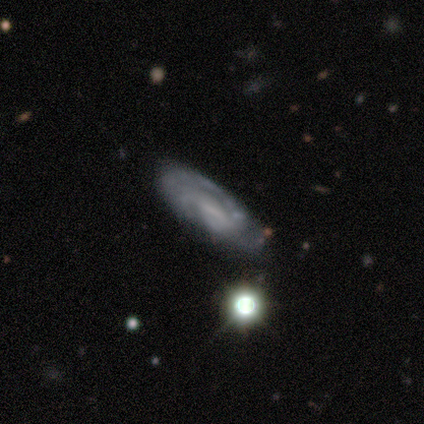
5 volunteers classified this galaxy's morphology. Smooth or featured?
  - featured or disk: 80% *
  - smooth: 20%
  - star or artifact: 0%
Edge-on disk?
  - no: 75% *
  - yes: 25%
Bar?
  - weak: 67% *
  - no: 33%
  - strong: 0%
Spiral arms?
  - yes: 100% *
  - no: 0%
Spiral winding?
  - medium: 67% *
  - tight: 33%
  - loose: 0%
Spiral arm count?
  - 2: 67% *
  - can't tell: 33%
  - 1: 0%
  - 3: 0%
  - 4: 0%
  - more than 4: 0%
Bulge size?
  - moderate: 67% *
  - small: 33%
  - dominant: 0%
  - large: 0%
  - none: 0%
Merging?
  - none: 60% *
  - minor disturbance: 40%
  - major disturbance: 0%
  - merger: 0%